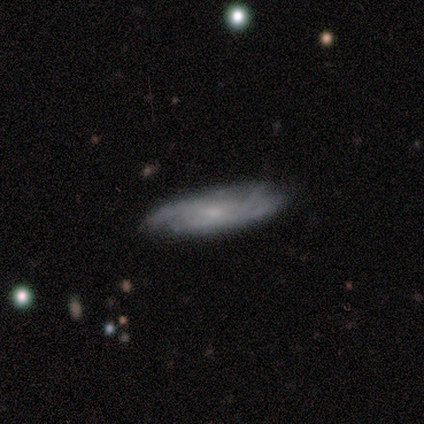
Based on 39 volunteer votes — smooth_or_featured: featured or disk (p=0.59) [alt: smooth p=0.33]
disk_edge_on: no (p=0.70) [alt: yes p=0.30]
bar: no (p=0.81) [alt: weak p=0.19]
has_spiral_arms: yes (p=0.88) [alt: no p=0.12]
spiral_winding: tight (p=0.64) [alt: medium p=0.29]
spiral_arm_count: can't tell (p=0.57) [alt: 2 p=0.21]
bulge_size: small (p=0.50) [alt: moderate p=0.38]
merging: none (p=0.78) [alt: minor disturbance p=0.22]